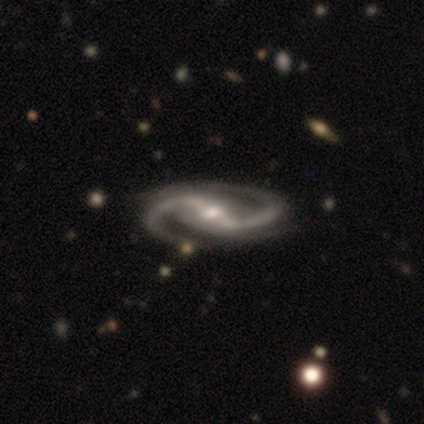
Q: Smooth or featured?
A: featured or disk (97%); runner-up: star or artifact (3%)
Q: Edge-on disk?
A: no (97%); runner-up: yes (3%)
Q: Bar?
A: strong (83%); runner-up: weak (17%)
Q: Spiral arms?
A: yes (100%)
Q: Spiral winding?
A: medium (64%); runner-up: loose (28%)
Q: Spiral arm count?
A: 2 (100%)
Q: Bulge size?
A: moderate (64%); runner-up: small (25%)
Q: Merging?
A: none (57%); runner-up: minor disturbance (11%)